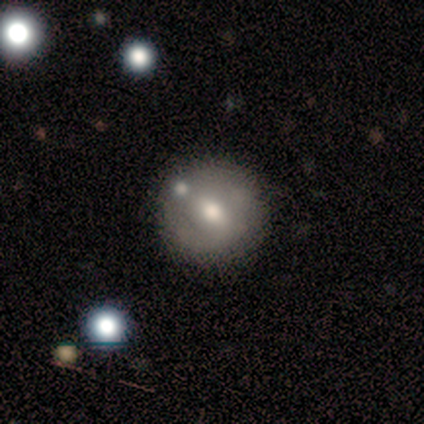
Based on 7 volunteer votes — This is marginally a smooth galaxy (43%). How rounded: clearly round (100%). Merging: clearly none (100%).